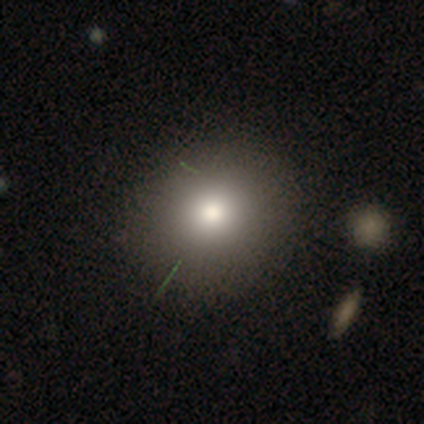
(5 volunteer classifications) Volunteers were most divided on "smooth or featured" (2-way tie): smooth: 40%, featured or disk: 40%, star or artifact: 20%. More confident: how rounded — in between (100%); merging — none (100%).